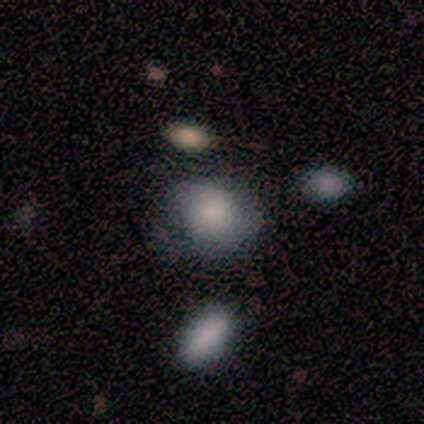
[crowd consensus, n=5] smooth_or_featured: smooth (p=0.80) [alt: star or artifact p=0.20]
how_rounded: round (p=0.50) [tied with: in between p=0.50]
merging: none (p=0.75) [alt: merger p=0.25]